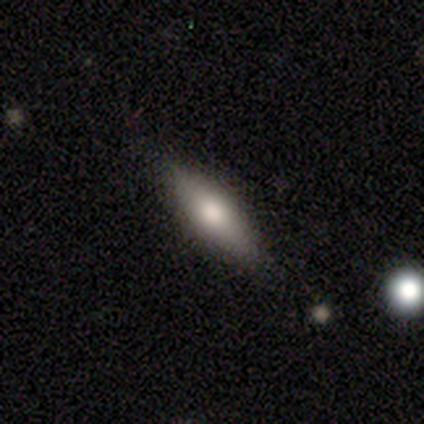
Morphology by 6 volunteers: Volunteers were most divided on "how rounded": cigar-shaped: 60%, in between: 40%, round: 0%. More confident: smooth or featured — smooth (83%); merging — none (83%).